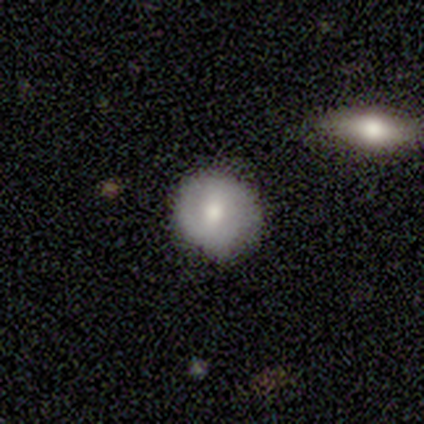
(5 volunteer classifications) Smooth or featured?
  - featured or disk: 80% *
  - smooth: 20%
  - star or artifact: 0%
Edge-on disk?
  - no: 100% *
  - yes: 0%
Bar?
  - no: 50% *
  - strong: 25%
  - weak: 25%
Spiral arms?
  - no: 75% *
  - yes: 25%
Bulge size?
  - moderate: 75% *
  - large: 25%
  - dominant: 0%
  - small: 0%
  - none: 0%
Merging?
  - none: 80% *
  - minor disturbance: 20%
  - major disturbance: 0%
  - merger: 0%